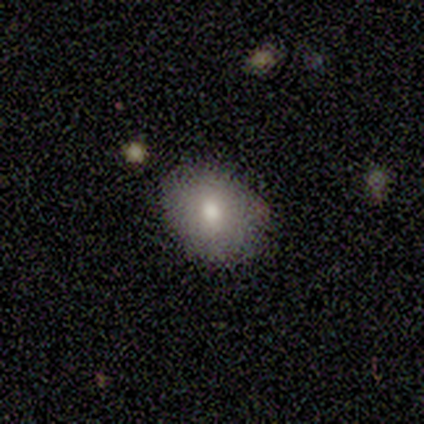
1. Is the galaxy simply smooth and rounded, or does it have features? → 89% smooth, 11% featured or disk, 0% star or artifact.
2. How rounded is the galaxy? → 75% round, 25% in between, 0% cigar-shaped.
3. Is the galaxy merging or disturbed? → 100% none, 0% minor disturbance, 0% major disturbance, 0% merger.